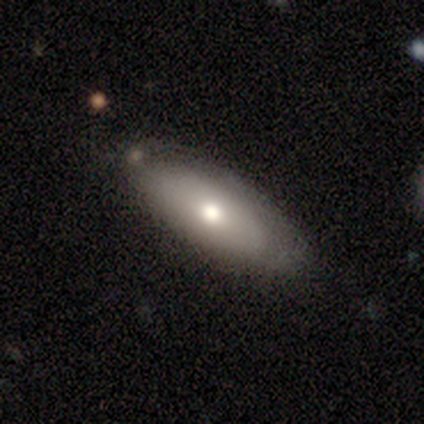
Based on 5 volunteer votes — Volunteers were most divided on "merging": none: 60%, minor disturbance: 20%, merger: 20%, major disturbance: 0%. More confident: edge-on disk — yes (100%); edge-on bulge — rounded (100%); smooth or featured — featured or disk (80%).